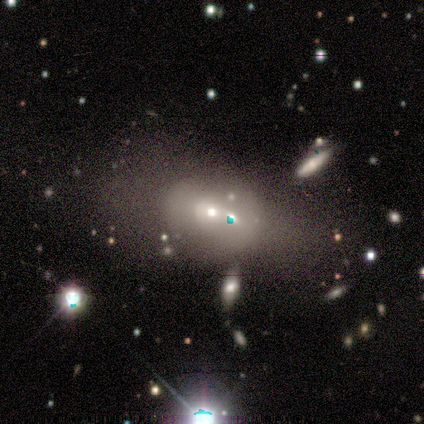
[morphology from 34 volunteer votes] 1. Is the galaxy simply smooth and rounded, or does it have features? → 44% featured or disk, 38% smooth, 18% star or artifact.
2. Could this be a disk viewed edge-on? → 100% no, 0% yes.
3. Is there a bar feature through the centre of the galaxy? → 93% no, 7% weak, 0% strong.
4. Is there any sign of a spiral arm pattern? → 100% no, 0% yes.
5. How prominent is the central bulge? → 60% moderate, 40% small, 0% dominant, 0% large, 0% none.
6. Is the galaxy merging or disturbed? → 29% none (tied), 29% merger (tied), 21% minor disturbance, 21% major disturbance.